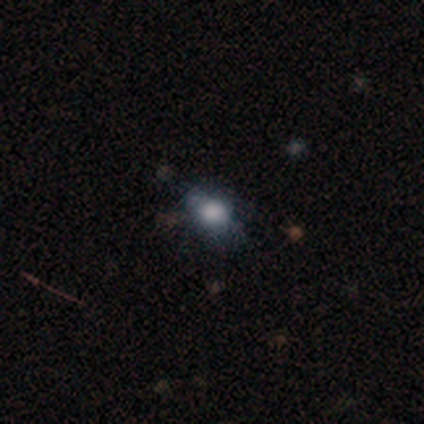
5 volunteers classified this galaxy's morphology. smooth-or-featured: smooth: 60% | featured or disk: 20% | star or artifact: 20%
  how-rounded: in between: 67% | round: 33% | cigar-shaped: 0%
  merging: none: 75% | minor disturbance: 25% | major disturbance: 0% | merger: 0%